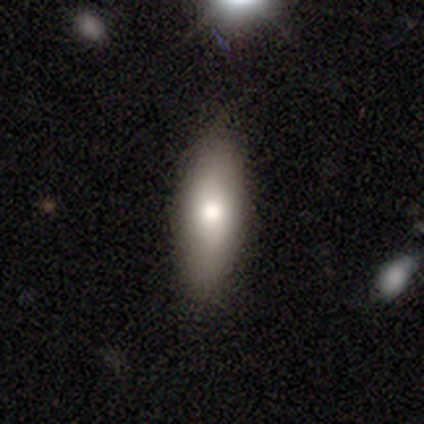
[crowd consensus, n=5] This appears to be a smooth galaxy with no disk features (60%) that is in between round and cigar-shaped (67%). Merging: none (100%).